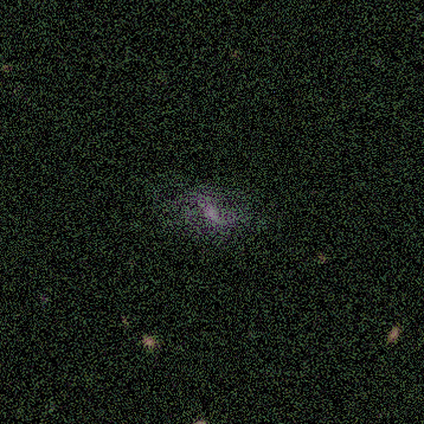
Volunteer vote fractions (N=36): Q: Smooth or featured?
A: featured or disk (42%); runner-up: smooth (36%)
Q: Edge-on disk?
A: no (100%)
Q: Bar?
A: weak (53%); runner-up: no (33%)
Q: Spiral arms?
A: yes (73%); runner-up: no (27%)
Q: Spiral winding?
A: loose (73%); runner-up: medium (27%)
Q: Spiral arm count?
A: 2 (82%); runner-up: can't tell (18%)
Q: Bulge size?
A: none (47%); runner-up: moderate (27%)
Q: Merging?
A: none (43%); runner-up: minor disturbance (29%)